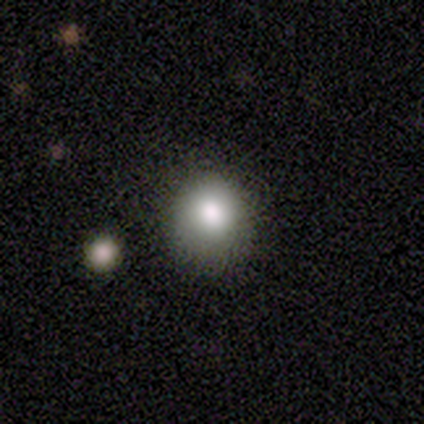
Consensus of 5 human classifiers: Smooth or featured?
  - smooth: 100% *
  - featured or disk: 0%
  - star or artifact: 0%
How rounded?
  - round: 100% *
  - in between: 0%
  - cigar-shaped: 0%
Merging?
  - none: 80% *
  - minor disturbance: 20%
  - major disturbance: 0%
  - merger: 0%